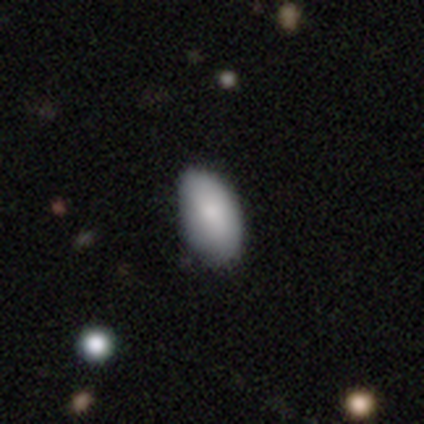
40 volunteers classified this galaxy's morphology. Smooth or featured?
  - smooth: 80% *
  - featured or disk: 12%
  - star or artifact: 8%
How rounded?
  - in between: 100% *
  - round: 0%
  - cigar-shaped: 0%
Merging?
  - none: 46% *
  - minor disturbance: 14%
  - merger: 3%
  - major disturbance: 0%